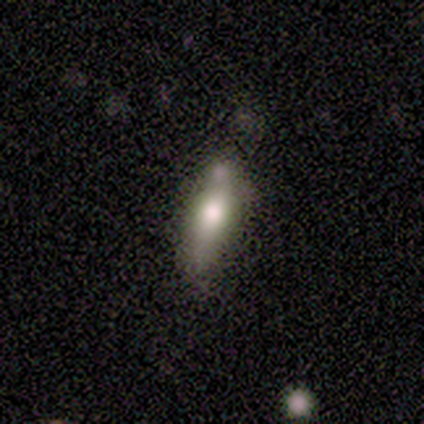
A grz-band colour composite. It shows a smooth galaxy with no disk features (75%) that is cigar-shaped (100%). Merging: minor disturbance (75%).